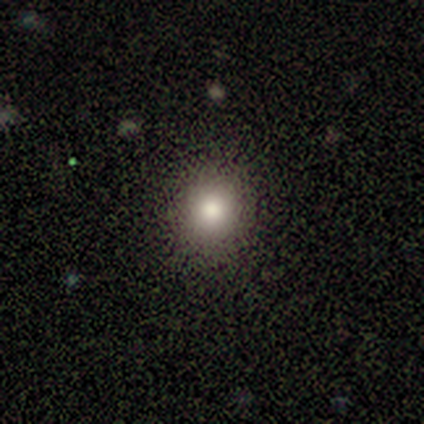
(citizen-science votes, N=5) smooth 80%, star or artifact 20%, featured or disk 0%. Down the decision tree: how rounded — round (50%, tied with in between); merging — none (100%).